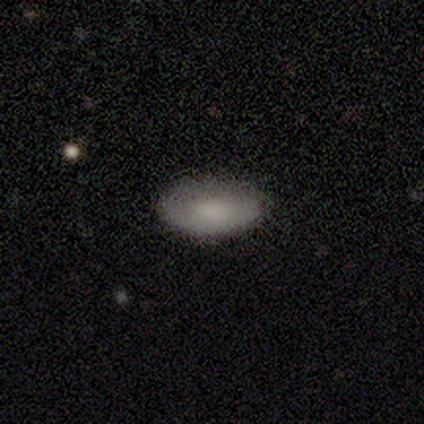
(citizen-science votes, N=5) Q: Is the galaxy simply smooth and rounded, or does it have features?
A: smooth — 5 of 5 (100%).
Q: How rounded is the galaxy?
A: in between — 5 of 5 (100%).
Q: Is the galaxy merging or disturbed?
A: none — 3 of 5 (60%).